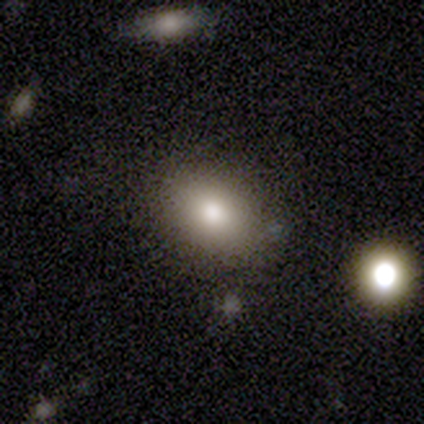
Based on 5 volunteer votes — Overall: smooth (100%). How rounded: round (60%; in between 40%). Merging: none (80%).